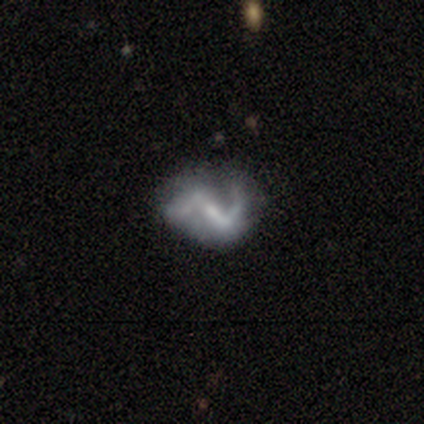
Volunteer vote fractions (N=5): A featured or disk galaxy (80%) with a weak bar (75%), 2 (75%) loose (75%) spiral arms (100%) and a small central bulge (50%). Merging: none (40%, tied with major disturbance).